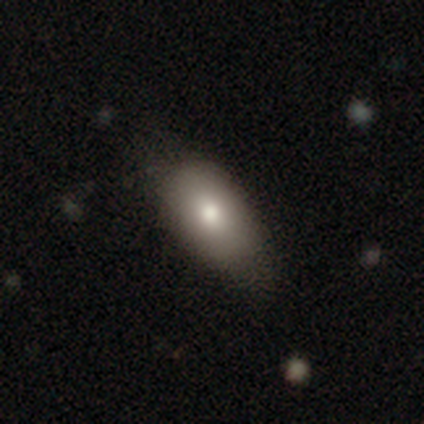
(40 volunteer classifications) A smooth galaxy with no disk features (92%) that is in between round and cigar-shaped (86%).

Vote fractions:
- Smooth or featured? smooth: 92% / featured or disk: 5% / star or artifact: 2%
- How rounded? in between: 86% / cigar-shaped: 11% / round: 3%
- Merging? none: 62% / minor disturbance: 21% / major disturbance: 3% / merger: 3%